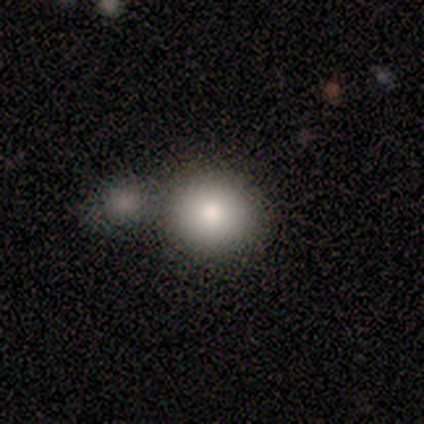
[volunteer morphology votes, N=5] smooth_or_featured: smooth (p=0.80) [alt: featured or disk p=0.20]
how_rounded: round (p=1.00)
merging: none (p=0.80) [alt: major disturbance p=0.20]